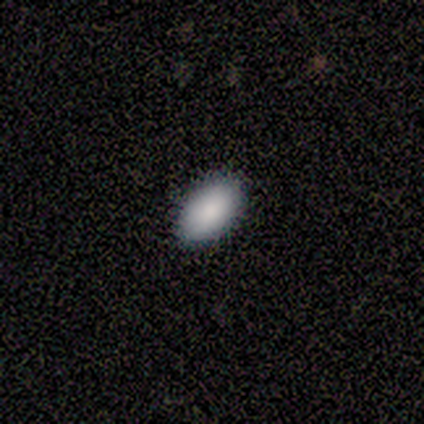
Q: Smooth or featured?
A: smooth (94%); runner-up: star or artifact (6%)
Q: How rounded?
A: in between (100%)
Q: Merging?
A: none (94%); runner-up: major disturbance (6%)